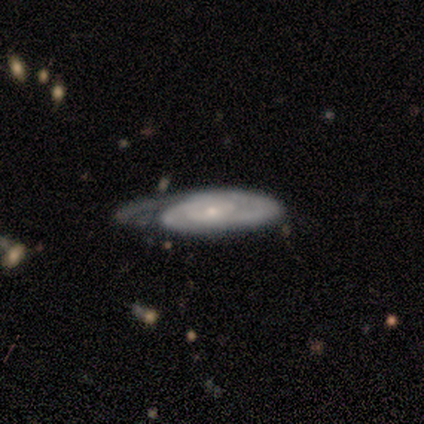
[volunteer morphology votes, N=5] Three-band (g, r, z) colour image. It shows a featured or disk galaxy (100%) with no bar (67%), 3 (67%) tight (67%) spiral arms (100%) and a small central bulge (100%). Merging: none (40%, tied with minor disturbance).